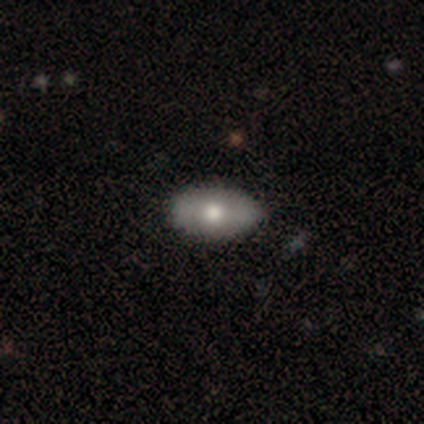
Overall: smooth (75%). How rounded: in between (100%). Merging: none (75%).